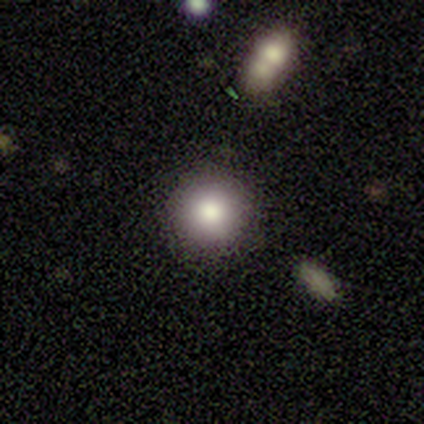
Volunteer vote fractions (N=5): Morphology: type=smooth (60%); roundness=round (100%); merging=none (100%).